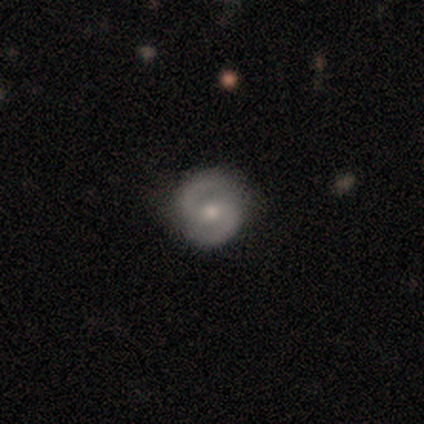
A featured or disk galaxy (86%) with no bar (50%), 2 (97%) medium (58%) spiral arms (97%) and a moderate central bulge (59%).

Vote fractions:
- Smooth or featured? featured or disk: 86% / smooth: 14% / star or artifact: 0%
- Edge-on disk? no: 100% / yes: 0%
- Bar? no: 50% / weak: 34% / strong: 16%
- Spiral arms? yes: 97% / no: 3%
- Spiral winding? medium: 58% / tight: 39% / loose: 3%
- Spiral arm count? 2: 97% / can't tell: 3% / 1: 0% / 3: 0% / 4: 0% / more than 4: 0%
- Bulge size? moderate: 59% / small: 41% / dominant: 0% / large: 0% / none: 0%
- Merging? none: 89% / minor disturbance: 8% / major disturbance: 3% / merger: 0%